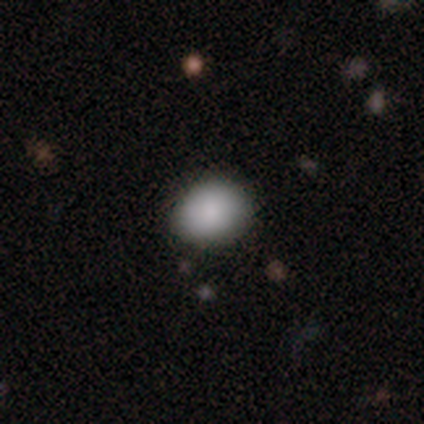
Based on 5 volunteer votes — Smooth or featured?
  - smooth: 40% * (tied)
  - featured or disk: 40% * (tied)
  - star or artifact: 20%
How rounded?
  - round: 50% * (tied)
  - in between: 50% * (tied)
  - cigar-shaped: 0%
Merging?
  - none: 75% *
  - minor disturbance: 25%
  - major disturbance: 0%
  - merger: 0%